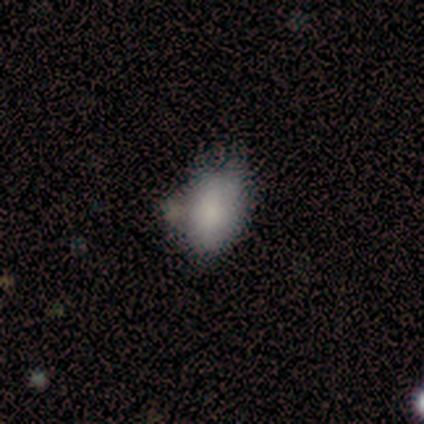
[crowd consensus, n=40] Smooth or featured?
  - smooth: 78% *
  - featured or disk: 20%
  - star or artifact: 2%
How rounded?
  - in between: 81% *
  - round: 16%
  - cigar-shaped: 3%
Merging?
  - none: 28% * (tied)
  - minor disturbance: 28% * (tied)
  - merger: 28% * (tied)
  - major disturbance: 15%